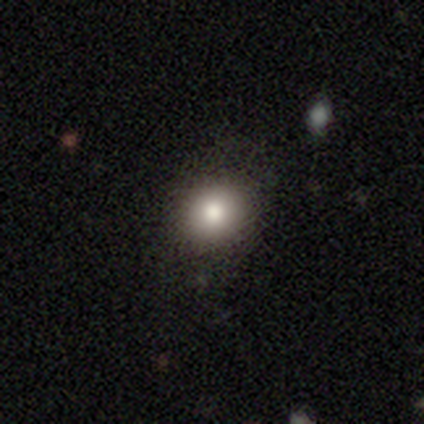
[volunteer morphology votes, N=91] smooth_or_featured: smooth (p=0.78) [alt: star or artifact p=0.13]
how_rounded: round (p=0.75) [alt: in between p=0.25]
merging: none (p=0.89) [alt: minor disturbance p=0.09]